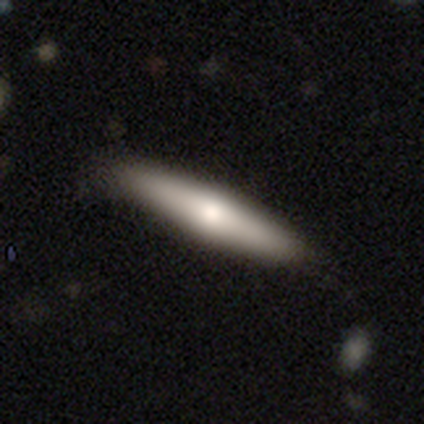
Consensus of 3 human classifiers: A smooth galaxy with no disk features (67%) that is cigar-shaped (100%). Merging: none (67%).